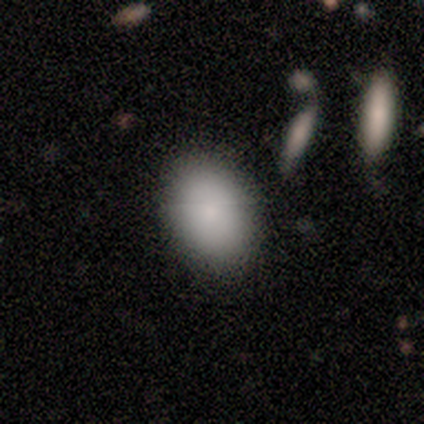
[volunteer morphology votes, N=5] smooth 80%, featured or disk 20%, star or artifact 0%. Down the decision tree: how rounded — round (75%); merging — none (60%).